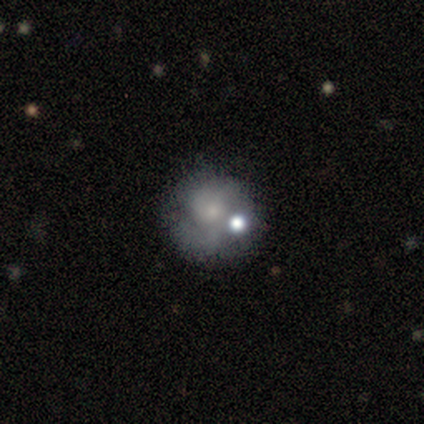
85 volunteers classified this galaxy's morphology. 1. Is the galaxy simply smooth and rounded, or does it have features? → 54% featured or disk, 31% smooth, 15% star or artifact.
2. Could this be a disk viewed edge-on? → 98% no, 2% yes.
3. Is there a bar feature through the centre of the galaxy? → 82% no, 18% weak, 0% strong.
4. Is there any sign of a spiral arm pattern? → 69% no, 31% yes.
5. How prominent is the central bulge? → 51% small, 24% moderate, 22% none, 2% large, 0% dominant.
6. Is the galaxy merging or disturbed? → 61% none, 18% minor disturbance, 14% merger, 7% major disturbance.